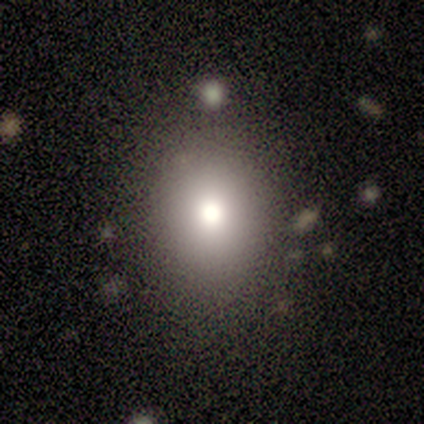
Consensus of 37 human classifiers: Smooth or featured: smooth — 76% (star or artifact — 14%)
How rounded: round — 54% (in between — 46%)
Merging: none — 75% (minor disturbance — 9%)